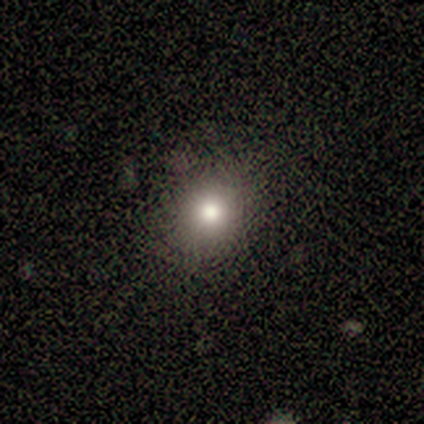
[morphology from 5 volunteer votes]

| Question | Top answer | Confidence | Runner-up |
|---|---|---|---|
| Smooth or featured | smooth | 40% | tied: star or artifact (40%) |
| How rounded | round | 100% | — |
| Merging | none | 100% | — |